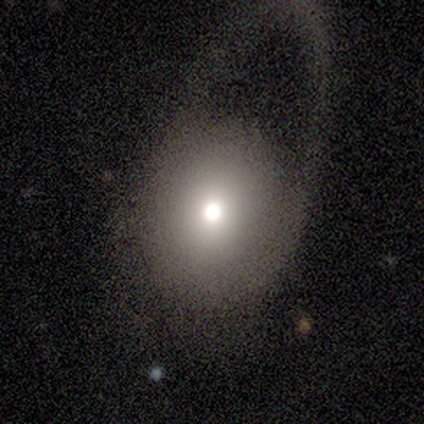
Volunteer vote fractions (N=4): Smooth or featured?
  - smooth: 75% *
  - featured or disk: 25%
  - star or artifact: 0%
How rounded?
  - round: 67% *
  - in between: 33%
  - cigar-shaped: 0%
Merging?
  - major disturbance: 50% *
  - none: 25%
  - minor disturbance: 25%
  - merger: 0%